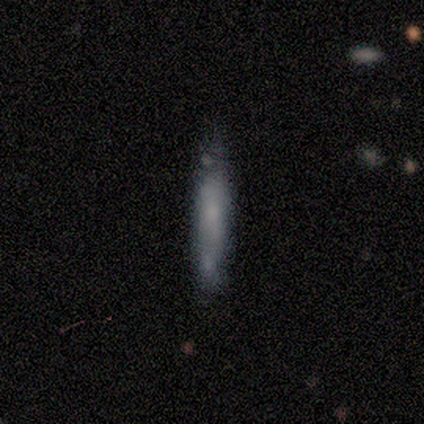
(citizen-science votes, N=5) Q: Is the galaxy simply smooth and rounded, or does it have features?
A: featured or disk — 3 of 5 (60%).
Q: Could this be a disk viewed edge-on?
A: yes — 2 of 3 (67%).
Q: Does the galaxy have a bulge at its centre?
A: boxy — 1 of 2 (50%, tied with none).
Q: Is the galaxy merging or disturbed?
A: none — 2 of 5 (40%).